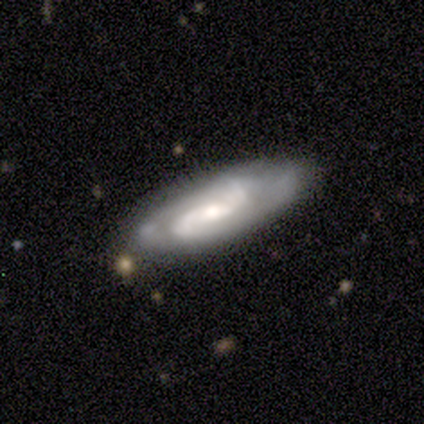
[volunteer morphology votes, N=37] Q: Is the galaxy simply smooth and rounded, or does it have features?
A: featured or disk — 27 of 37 (73%).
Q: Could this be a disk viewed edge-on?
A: no — 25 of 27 (93%).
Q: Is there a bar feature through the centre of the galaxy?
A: weak — 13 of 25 (52%).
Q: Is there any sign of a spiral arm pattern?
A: yes — 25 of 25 (100%).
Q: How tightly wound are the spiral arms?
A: medium — 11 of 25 (44%).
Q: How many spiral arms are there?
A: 2 — 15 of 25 (60%).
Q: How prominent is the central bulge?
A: moderate — 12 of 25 (48%).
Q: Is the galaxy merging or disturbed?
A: none — 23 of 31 (74%).